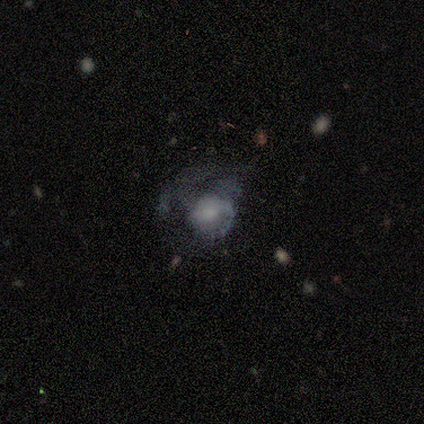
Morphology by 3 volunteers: A featured or disk galaxy (67%) with no bar (100%), 1 (50%, tied with more than 4) tight (50%, tied with medium) spiral arms (100%) and a large central bulge (50%, tied with none).

Vote fractions:
- Smooth or featured? featured or disk: 67% / smooth: 33% / star or artifact: 0%
- Edge-on disk? no: 100% / yes: 0%
- Bar? no: 100% / strong: 0% / weak: 0%
- Spiral arms? yes: 100% / no: 0%
- Spiral winding? tight: 50% (tied) / medium: 50% (tied) / loose: 0%
- Spiral arm count? 1: 50% (tied) / more than 4: 50% (tied) / 2: 0% / 3: 0% / 4: 0% / can't tell: 0%
- Bulge size? large: 50% (tied) / none: 50% (tied) / dominant: 0% / moderate: 0% / small: 0%
- Merging? minor disturbance: 67% / none: 33% / major disturbance: 0% / merger: 0%